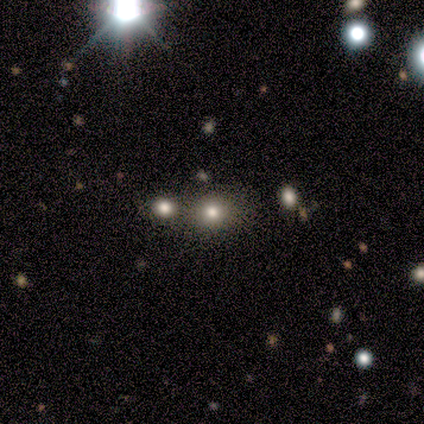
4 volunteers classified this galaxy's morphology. Volunteers were most divided on "smooth or featured": smooth: 75%, star or artifact: 25%, featured or disk: 0%. More confident: how rounded — in between (100%); merging — merger (100%).